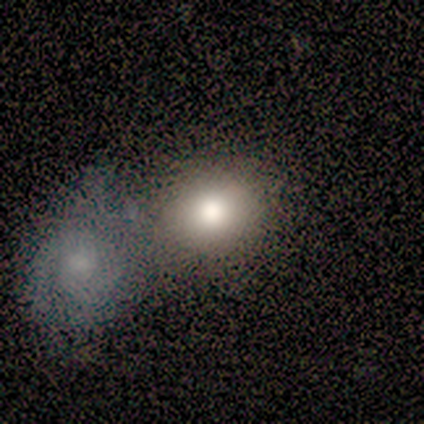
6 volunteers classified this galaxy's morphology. Volunteers were most divided on "merging": none: 50%, minor disturbance: 33%, merger: 17%, major disturbance: 0%. More confident: smooth or featured — smooth (100%); how rounded — round (67%).